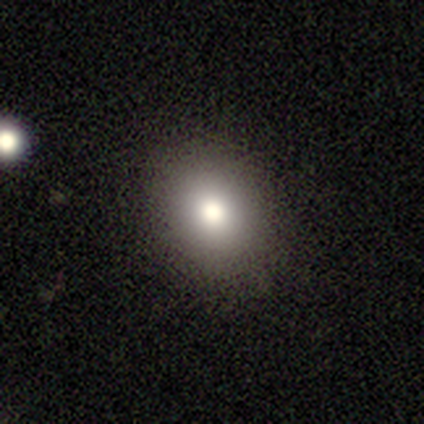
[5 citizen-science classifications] A smooth galaxy with no disk features (100%) that is in between round and cigar-shaped (60%).

Vote fractions:
- Smooth or featured? smooth: 100% / featured or disk: 0% / star or artifact: 0%
- How rounded? in between: 60% / round: 40% / cigar-shaped: 0%
- Merging? none: 100% / minor disturbance: 0% / major disturbance: 0% / merger: 0%